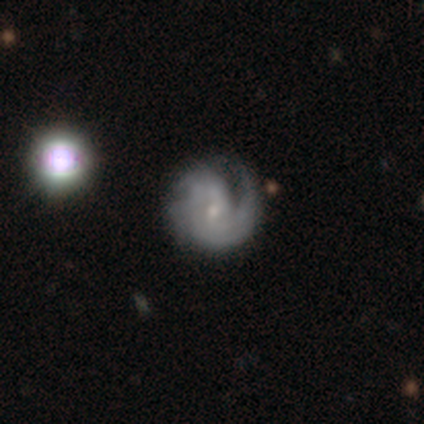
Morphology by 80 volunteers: A featured or disk galaxy (86%) with no bar (69%), tight (42%) spiral arms (99%) and a small central bulge (76%).

Vote fractions:
- Smooth or featured? featured or disk: 86% / smooth: 10% / star or artifact: 4%
- Edge-on disk? no: 99% / yes: 1%
- Bar? no: 69% / weak: 31% / strong: 0%
- Spiral arms? yes: 99% / no: 1%
- Spiral winding? tight: 42% / medium: 40% / loose: 18%
- Spiral arm count? can't tell: 34% / 2: 28% / 1: 25% / 3: 12% / 4: 0% / more than 4: 0%
- Bulge size? small: 76% / moderate: 18% / none: 4% / large: 1% / dominant: 0%
- Merging? none: 35% / minor disturbance: 10% / major disturbance: 5% / merger: 5%